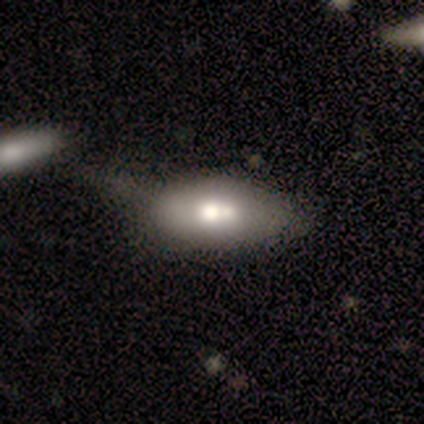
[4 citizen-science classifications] Smooth or featured: featured or disk — 75% (smooth — 25%)
Edge-on disk: no — 67% (yes — 33%)
Bar: no — 100%
Spiral arms: no — 100%
Bulge size: moderate — 100%
Merging: major disturbance — 50% (none — 25%)